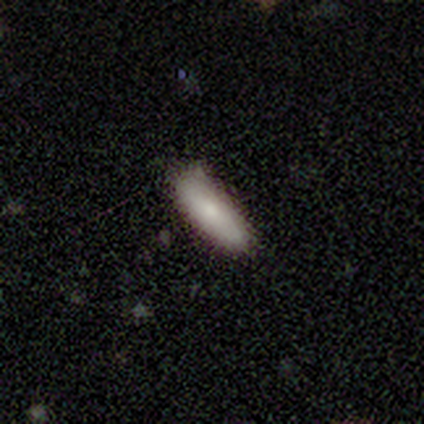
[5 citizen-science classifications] Overall: smooth (100%). How rounded: in between (80%). Merging: none (80%).